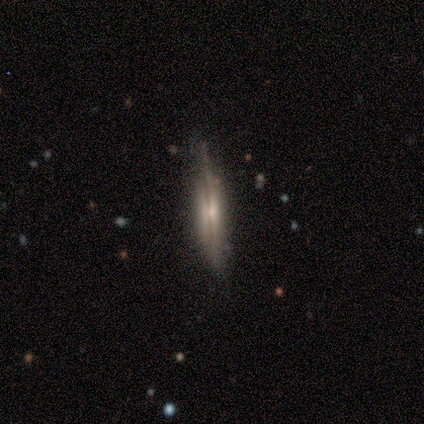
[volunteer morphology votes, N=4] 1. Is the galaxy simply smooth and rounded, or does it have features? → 75% featured or disk, 25% star or artifact, 0% smooth.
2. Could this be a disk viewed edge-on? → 100% yes, 0% no.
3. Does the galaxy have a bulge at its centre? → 33% boxy (tied), 33% none (tied), 33% rounded (tied).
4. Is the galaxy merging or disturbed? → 100% none, 0% minor disturbance, 0% major disturbance, 0% merger.